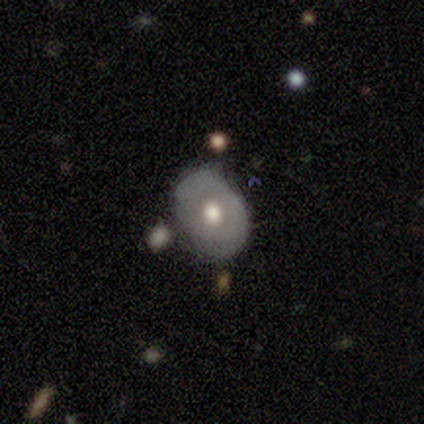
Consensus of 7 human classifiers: Smooth or featured? featured or disk (57%)
Edge-on disk? no (100%)
Bar? no (100%)
Spiral arms? no (100%)
Bulge size? moderate (75%)
Merging? none (86%)